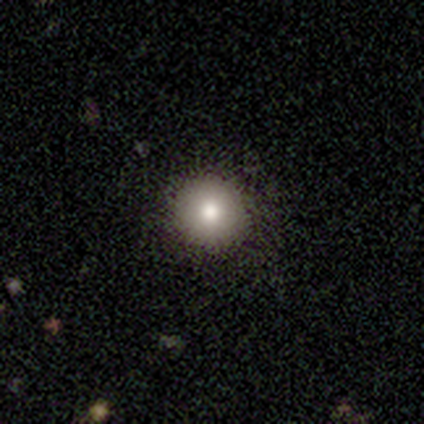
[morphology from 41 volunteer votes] smooth-or-featured: smooth: 88% | star or artifact: 7% | featured or disk: 5%
  how-rounded: round: 100% | in between: 0% | cigar-shaped: 0%
  merging: none: 92% | minor disturbance: 5% | major disturbance: 3% | merger: 0%